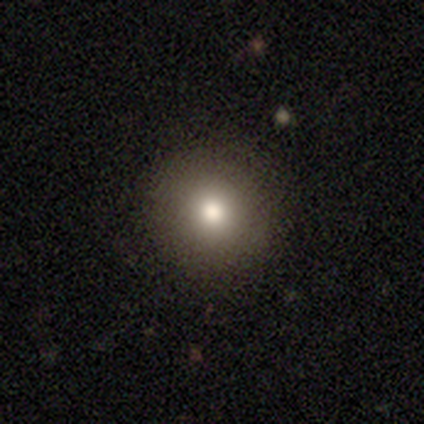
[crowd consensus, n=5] smooth-or-featured: smooth: 100% | featured or disk: 0% | star or artifact: 0%
  how-rounded: round: 100% | in between: 0% | cigar-shaped: 0%
  merging: none: 100% | minor disturbance: 0% | major disturbance: 0% | merger: 0%